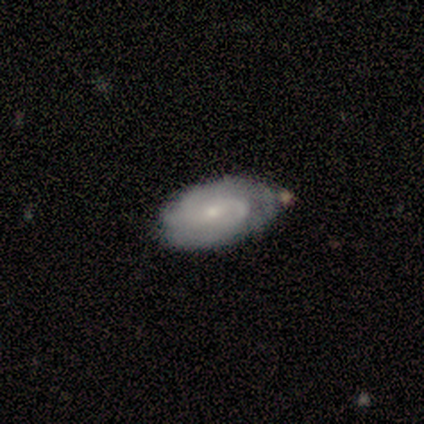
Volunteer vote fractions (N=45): Smooth or featured: featured or disk — 58% (smooth — 40%)
Edge-on disk: no — 92% (yes — 8%)
Bar: no — 67% (weak — 29%)
Spiral arms: yes — 96% (no — 4%)
Spiral winding: tight — 57% (medium — 26%)
Spiral arm count: 2 — 35% (tied with can't tell — 35%)
Bulge size: small — 58% (moderate — 38%)
Merging: none — 50% (minor disturbance — 34%)